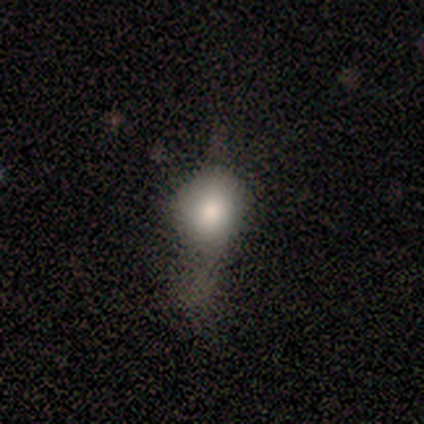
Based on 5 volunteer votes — A smooth galaxy with no disk features (100%) that is round (80%). Merging: none (40%).